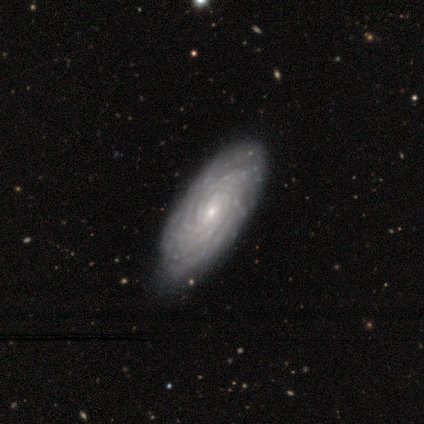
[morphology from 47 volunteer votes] smooth_or_featured: featured or disk (p=0.79) [alt: smooth p=0.15]
disk_edge_on: no (p=0.92) [alt: yes p=0.08]
bar: no (p=0.79) [alt: weak p=0.21]
has_spiral_arms: yes (p=0.94) [alt: no p=0.06]
spiral_winding: tight (p=0.91) [alt: medium p=0.09]
spiral_arm_count: more than 4 (p=0.56) [alt: can't tell p=0.25]
bulge_size: small (p=0.79) [alt: moderate p=0.21]
merging: none (p=0.89) [alt: minor disturbance p=0.11]